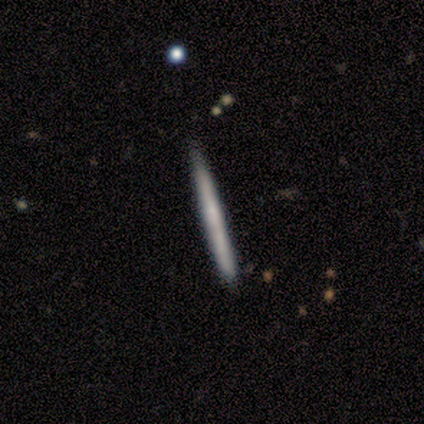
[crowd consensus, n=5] Volunteers were most divided on "smooth or featured": smooth: 60%, featured or disk: 40%, star or artifact: 0%. More confident: how rounded — cigar-shaped (100%); merging — none (100%).